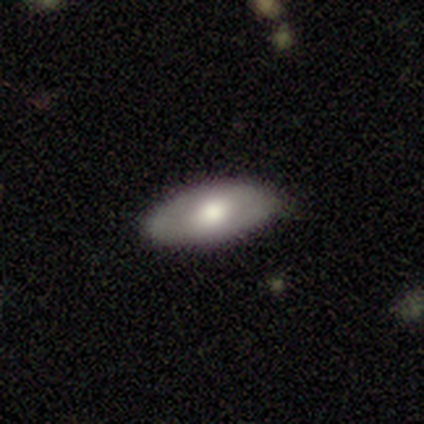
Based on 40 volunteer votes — Smooth or featured? 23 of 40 (57%) said smooth. How rounded? 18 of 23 (78%) said in between. Merging? 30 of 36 (83%) said none.